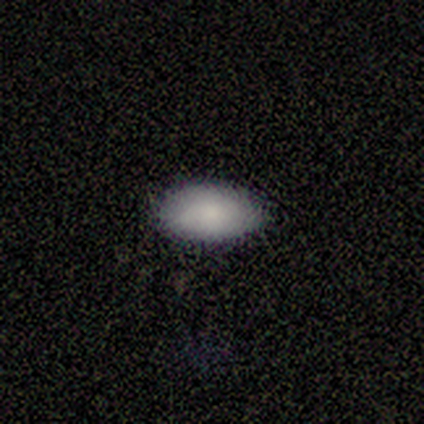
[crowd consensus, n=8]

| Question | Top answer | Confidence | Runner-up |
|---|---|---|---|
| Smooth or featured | smooth | 100% | — |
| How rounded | in between | 100% | — |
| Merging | none | 88% | major disturbance (12%) |